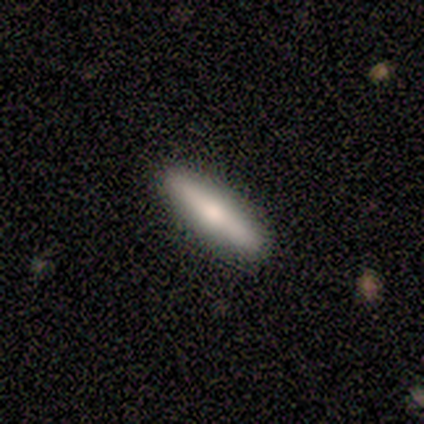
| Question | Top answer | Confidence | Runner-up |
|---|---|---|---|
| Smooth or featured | smooth | 60% | featured or disk (40%) |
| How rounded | cigar-shaped | 67% | in between (33%) |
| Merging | none | 100% | — |